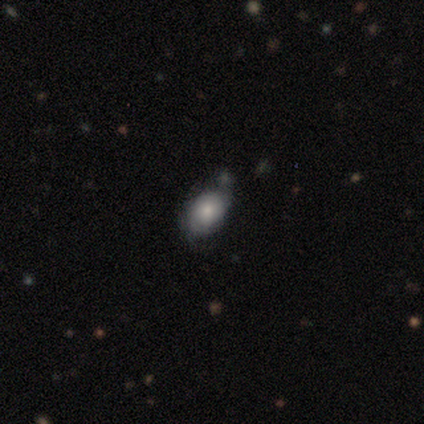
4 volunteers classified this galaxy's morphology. smooth-or-featured: smooth: 50% | featured or disk: 25% | star or artifact: 25%
  how-rounded: in between: 100% | round: 0% | cigar-shaped: 0%
  merging: minor disturbance: 67% | none: 33% | major disturbance: 0% | merger: 0%